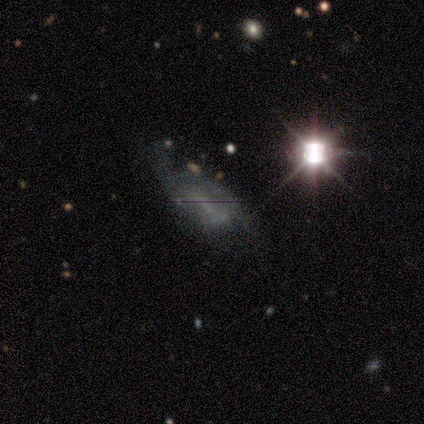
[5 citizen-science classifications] Overall: featured or disk (60%; smooth 20%). Edge-on disk: no (100%). Bar: no (67%; weak 33%). Spiral arms: no (67%; yes 33%). Bulge size: none (100%). Merging: major disturbance (50%; none 25%).